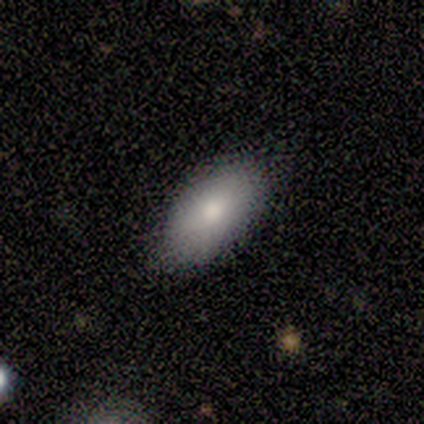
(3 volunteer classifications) Smooth or featured? smooth (100%)
How rounded? in between (100%)
Merging? none (67%)